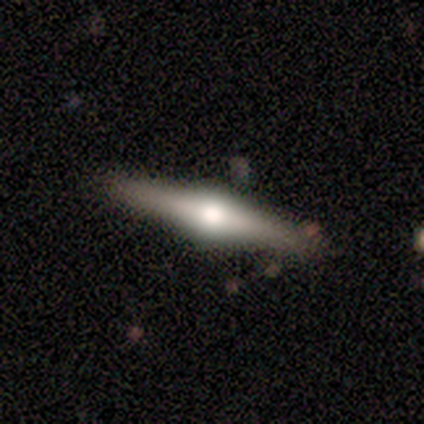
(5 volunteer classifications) Morphology: type=featured or disk (80%); edge-on=yes (100%); edge-on bulge=rounded (100%); merging=none (100%).